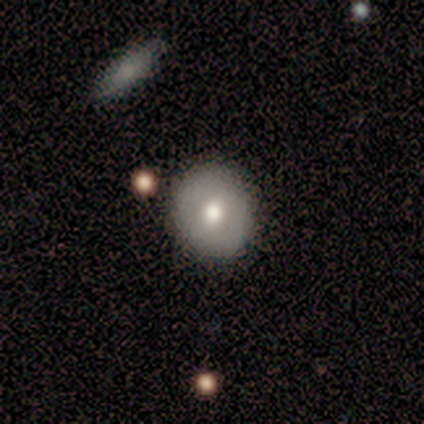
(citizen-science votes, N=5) Volunteers were most divided on "smooth or featured": smooth: 60%, featured or disk: 40%, star or artifact: 0%. More confident: merging — none (80%); how rounded — in between (67%).